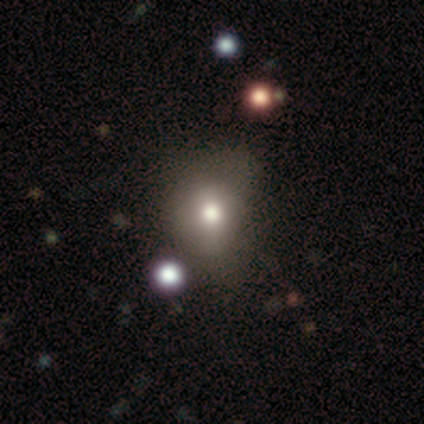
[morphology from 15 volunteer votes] This is likely a smooth galaxy (60%). How rounded: likely round (67%). Merging: likely none (67%).